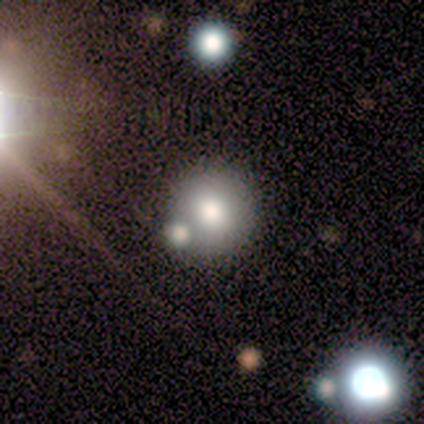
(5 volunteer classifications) Smooth or featured?
  - smooth: 80% *
  - star or artifact: 20%
  - featured or disk: 0%
How rounded?
  - round: 100% *
  - in between: 0%
  - cigar-shaped: 0%
Merging?
  - none: 75% *
  - merger: 25%
  - minor disturbance: 0%
  - major disturbance: 0%